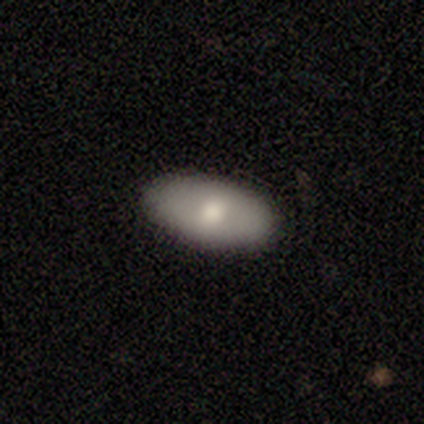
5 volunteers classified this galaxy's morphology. Smooth or featured: smooth — 60% (featured or disk — 40%)
How rounded: in between — 100%
Merging: none — 80% (major disturbance — 20%)